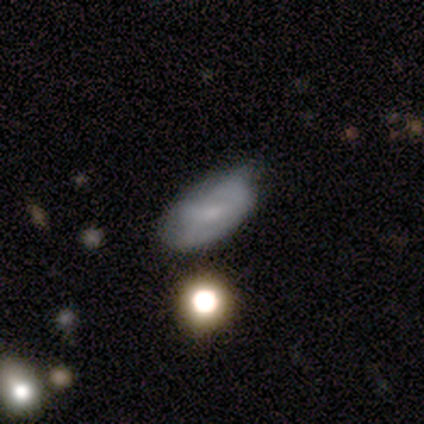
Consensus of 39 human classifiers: A smooth galaxy with no disk features (59%) that is in between round and cigar-shaped (87%). Merging: none (57%).